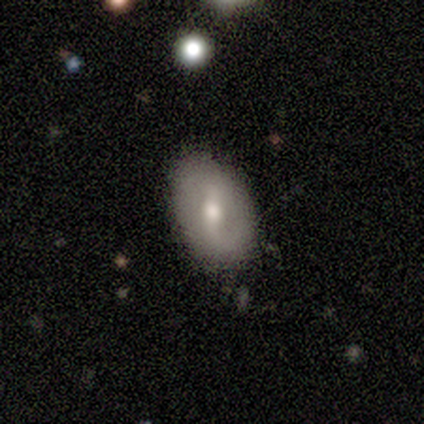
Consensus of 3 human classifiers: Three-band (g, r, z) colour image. It shows a featured or disk galaxy (67%) with a strong bar (50%, tied with weak), 2 (100%) tight (100%) spiral arms (50%, tied with no) and a moderate central bulge (100%). Merging: none (100%).